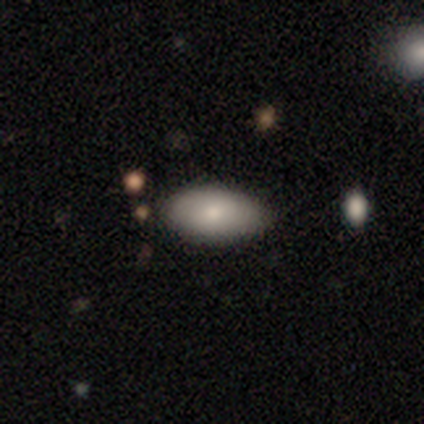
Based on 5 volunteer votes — smooth-or-featured: smooth: 100% | featured or disk: 0% | star or artifact: 0%
  how-rounded: in between: 100% | round: 0% | cigar-shaped: 0%
  merging: none: 80% | minor disturbance: 20% | major disturbance: 0% | merger: 0%